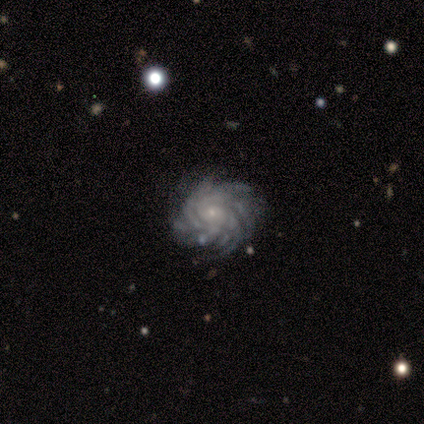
Smooth or featured: featured or disk — 100%
Edge-on disk: no — 83% (yes — 17%)
Bar: no — 100%
Spiral arms: yes — 100%
Spiral winding: tight — 40% (tied with loose — 40%)
Spiral arm count: more than 4 — 80% (can't tell — 20%)
Bulge size: small — 80% (moderate — 20%)
Merging: none — 83% (minor disturbance — 17%)